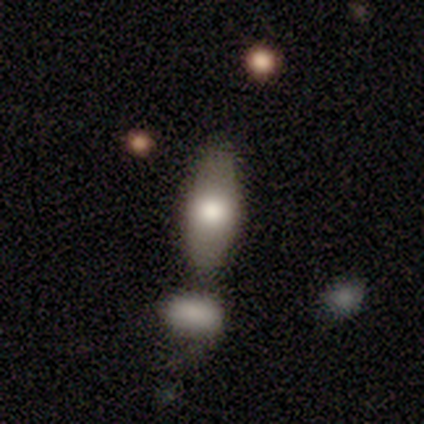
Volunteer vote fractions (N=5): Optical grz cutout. It shows a smooth galaxy with no disk features (80%) that is in between round and cigar-shaped (100%). Merging: none (60%).